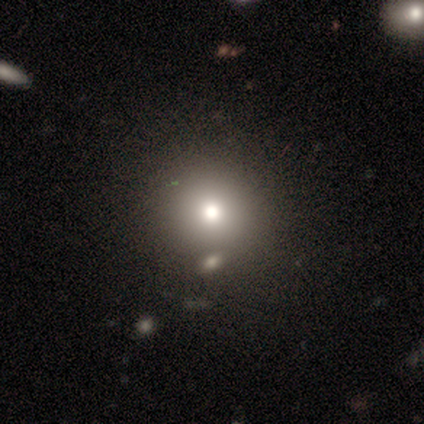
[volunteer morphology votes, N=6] Smooth or featured? smooth (83%)
How rounded? round (80%)
Merging? none (60%)